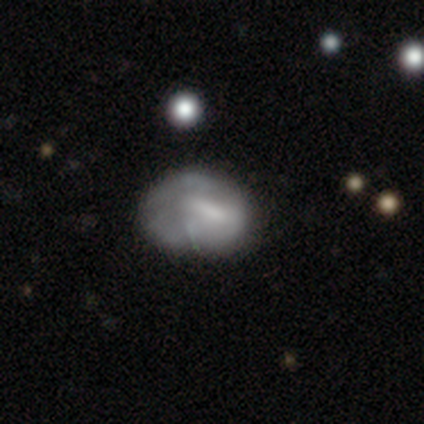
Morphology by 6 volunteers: Volunteers were most divided on "merging": major disturbance: 50%, none: 33%, minor disturbance: 17%, merger: 0%. More confident: how rounded — in between (75%); smooth or featured — smooth (67%).